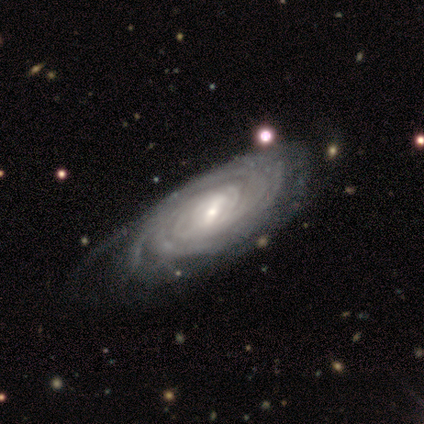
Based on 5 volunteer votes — Smooth or featured? featured or disk (100%)
Edge-on disk? no (100%)
Bar? weak (80%)
Spiral arms? yes (100%)
Spiral winding? tight (100%)
Spiral arm count? 4 (40%)
Bulge size? moderate (60%)
Merging? minor disturbance (60%)